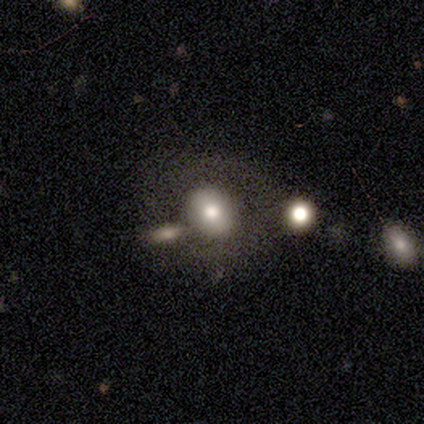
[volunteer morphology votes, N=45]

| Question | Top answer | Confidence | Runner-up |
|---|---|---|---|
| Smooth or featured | smooth | 53% | featured or disk (29%) |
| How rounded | round | 50% | tied: in between (50%) |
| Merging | none | 51% | major disturbance (22%) |